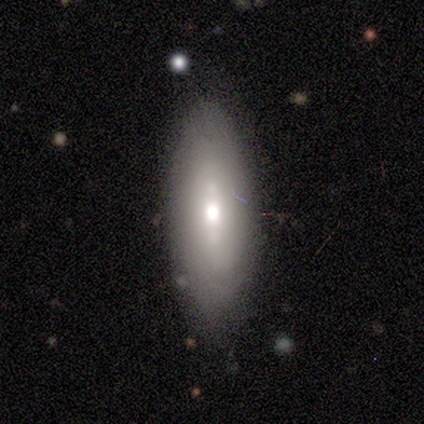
Smooth or featured? 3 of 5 (60%) said featured or disk. Edge-on disk? 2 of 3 (67%) said yes. Edge-on bulge? 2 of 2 (100%) said rounded. Merging? 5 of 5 (100%) said none.